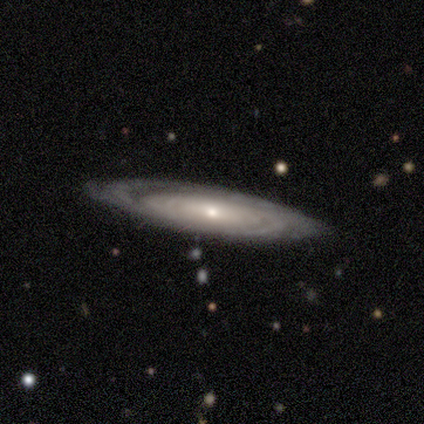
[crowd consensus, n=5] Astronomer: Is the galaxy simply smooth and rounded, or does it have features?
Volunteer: featured or disk — 80%.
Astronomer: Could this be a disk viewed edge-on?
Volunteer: no — 75%.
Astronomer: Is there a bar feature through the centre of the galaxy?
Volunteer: no — 100%.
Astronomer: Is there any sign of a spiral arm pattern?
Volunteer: yes — 100%.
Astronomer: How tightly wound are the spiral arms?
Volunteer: tight — 100%.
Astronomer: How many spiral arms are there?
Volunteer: can't tell — 67%.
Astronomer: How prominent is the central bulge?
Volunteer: small — 100%.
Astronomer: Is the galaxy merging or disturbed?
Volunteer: none — 100%.